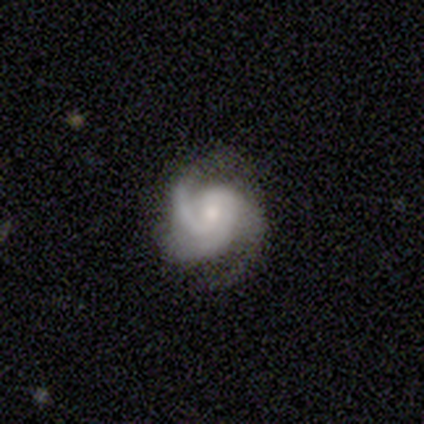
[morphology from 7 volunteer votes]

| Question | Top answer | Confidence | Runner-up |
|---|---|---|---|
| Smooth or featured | featured or disk | 100% | — |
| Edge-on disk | no | 86% | yes (14%) |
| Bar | weak | 50% | tied: no (50%) |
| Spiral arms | yes | 100% | — |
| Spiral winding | medium | 67% | tight (33%) |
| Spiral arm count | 3 | 67% | 2 (17%) |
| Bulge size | moderate | 50% | tied: small (50%) |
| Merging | minor disturbance | 57% | none (29%) |